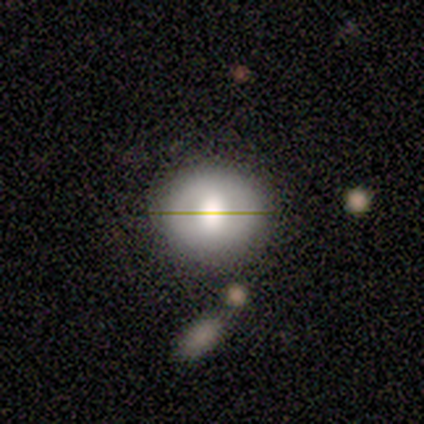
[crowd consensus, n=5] A smooth galaxy with no disk features (80%) that is round (100%).

Vote fractions:
- Smooth or featured? smooth: 80% / featured or disk: 20% / star or artifact: 0%
- How rounded? round: 100% / in between: 0% / cigar-shaped: 0%
- Merging? none: 80% / major disturbance: 20% / minor disturbance: 0% / merger: 0%